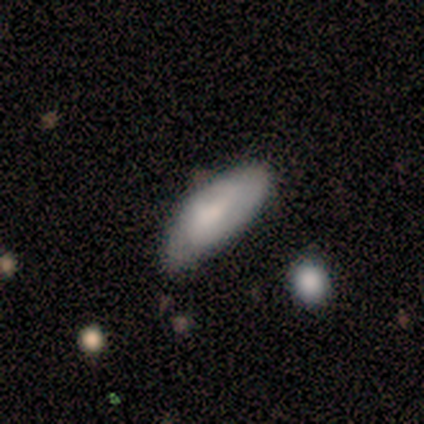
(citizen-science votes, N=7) Smooth or featured: featured or disk — 71% (smooth — 29%)
Edge-on disk: no — 100%
Bar: no — 60% (weak — 40%)
Spiral arms: yes — 60% (no — 40%)
Spiral winding: medium — 67% (tight — 33%)
Spiral arm count: 2 — 67% (can't tell — 33%)
Bulge size: small — 80% (none — 20%)
Merging: minor disturbance — 57% (none — 43%)